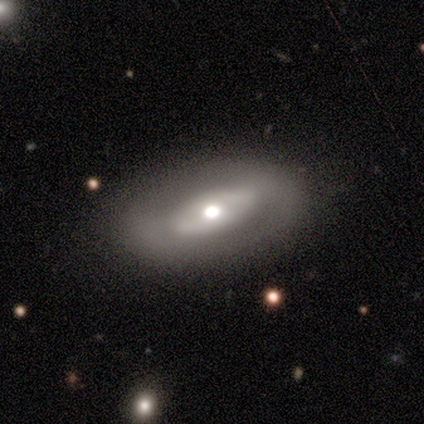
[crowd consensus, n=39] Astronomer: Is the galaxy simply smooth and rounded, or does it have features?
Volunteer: featured or disk — 56% (runner-up: smooth, 41%).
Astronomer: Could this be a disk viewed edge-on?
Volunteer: no — 86%.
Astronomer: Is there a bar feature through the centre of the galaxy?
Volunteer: no — 47% (runner-up: strong, 32%).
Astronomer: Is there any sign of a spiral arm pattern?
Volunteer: no — 74%.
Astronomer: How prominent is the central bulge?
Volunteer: moderate — 58%.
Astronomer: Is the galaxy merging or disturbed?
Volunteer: none — 79%.